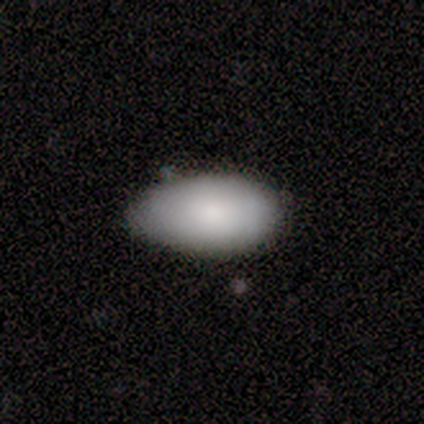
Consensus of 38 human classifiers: This appears to be a smooth galaxy with no disk features (74%) that is in between round and cigar-shaped (96%). Merging: none (62%).